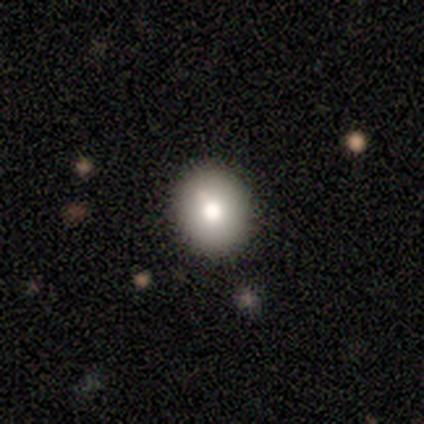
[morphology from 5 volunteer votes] A smooth galaxy with no disk features (80%) that is round (100%). Merging: none (80%).